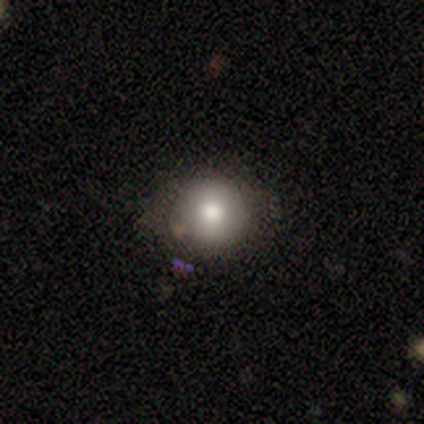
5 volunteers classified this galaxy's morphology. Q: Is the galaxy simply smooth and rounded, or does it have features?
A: smooth — 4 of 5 (80%).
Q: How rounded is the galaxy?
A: round — 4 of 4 (100%).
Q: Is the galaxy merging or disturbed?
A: none — 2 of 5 (40%, tied with major disturbance).